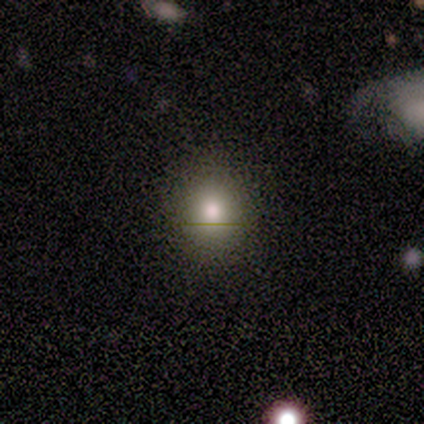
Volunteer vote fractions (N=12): smooth_or_featured: smooth (p=0.75) [alt: star or artifact p=0.17]
how_rounded: round (p=0.78) [alt: in between p=0.22]
merging: none (p=1.00)